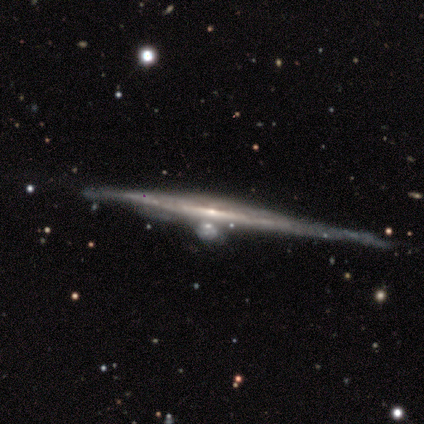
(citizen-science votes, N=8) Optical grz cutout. It shows a featured or disk galaxy (75%) viewed edge-on (100%) with no central bulge (50%, tied with rounded). Merging: none (50%).